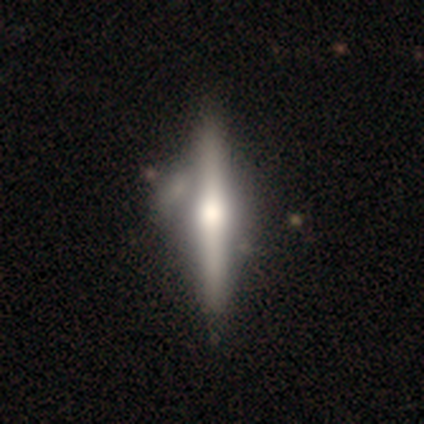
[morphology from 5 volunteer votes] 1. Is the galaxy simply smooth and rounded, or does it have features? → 40% smooth (tied), 40% featured or disk (tied), 20% star or artifact.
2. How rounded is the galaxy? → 100% cigar-shaped, 0% round, 0% in between.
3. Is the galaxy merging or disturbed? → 75% none, 25% minor disturbance, 0% major disturbance, 0% merger.